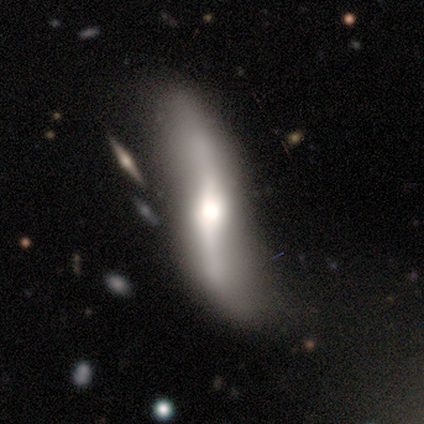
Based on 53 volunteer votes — Smooth or featured? featured or disk (87%)
Edge-on disk? no (57%)
Bar? strong (38%)
Spiral arms? yes (100%)
Spiral winding? loose (92%)
Spiral arm count? 2 (100%)
Bulge size? moderate (65%)
Merging? none (64%)